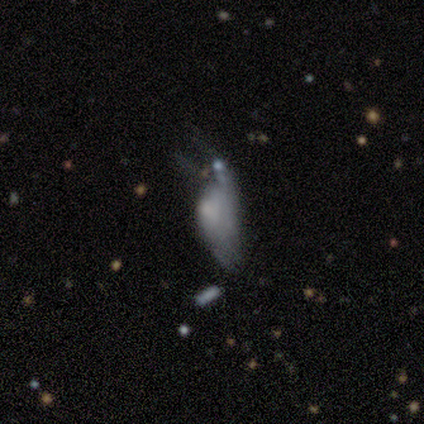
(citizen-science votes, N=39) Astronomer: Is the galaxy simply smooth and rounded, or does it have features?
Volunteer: featured or disk — 62%.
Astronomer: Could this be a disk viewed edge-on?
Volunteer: no — 88%.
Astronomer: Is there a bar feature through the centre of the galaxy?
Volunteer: no — 100%.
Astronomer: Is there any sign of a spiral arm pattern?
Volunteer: no — 86%.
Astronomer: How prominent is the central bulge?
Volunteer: small — 52%.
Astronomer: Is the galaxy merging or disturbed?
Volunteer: major disturbance — 69%.